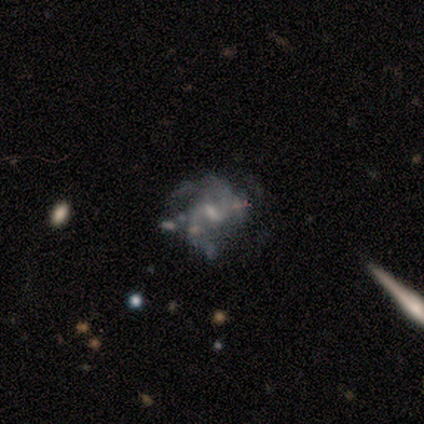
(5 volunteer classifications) Smooth or featured? 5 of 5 (100%) said featured or disk. Edge-on disk? 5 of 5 (100%) said no. Bar? 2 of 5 (40%, tied with weak) said strong. Spiral arms? 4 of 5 (80%) said yes. Spiral winding? 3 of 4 (75%) said medium. Spiral arm count? 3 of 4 (75%) said 2. Bulge size? 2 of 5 (40%, tied with none) said moderate. Merging? 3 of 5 (60%) said none.